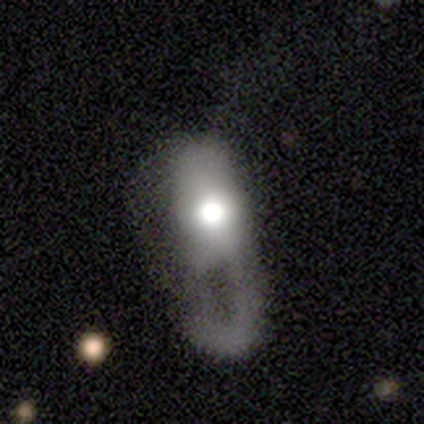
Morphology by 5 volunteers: Volunteers were most divided on "smooth or featured": smooth: 80%, featured or disk: 20%, star or artifact: 0%. More confident: how rounded — in between (100%); merging — major disturbance (100%).